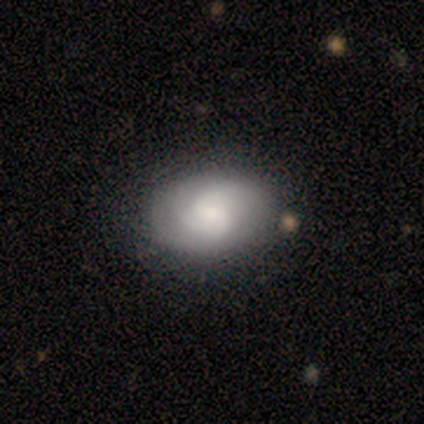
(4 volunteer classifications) Smooth or featured? featured or disk (75%)
Edge-on disk? no (100%)
Bar? no (67%)
Spiral arms? yes (67%)
Spiral winding? tight (50%, tied with loose)
Spiral arm count? 2 (50%, tied with can't tell)
Bulge size? moderate (67%)
Merging? none (75%)